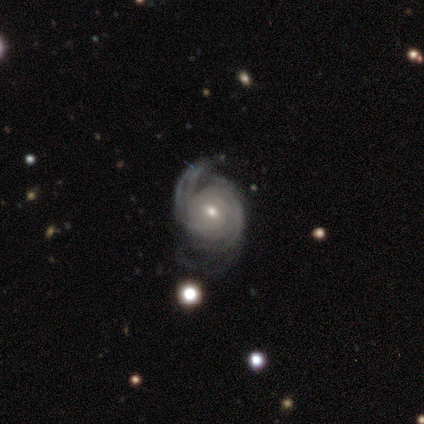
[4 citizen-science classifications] Volunteers were most divided on "merging" (2-way tie): none: 50%, minor disturbance: 50%, major disturbance: 0%, merger: 0%. More confident: smooth or featured — featured or disk (100%); edge-on disk — no (100%); spiral arms — yes (100%); spiral arm count — 2 (100%); bar — no (75%); spiral winding — medium (75%); bulge size — moderate (75%).